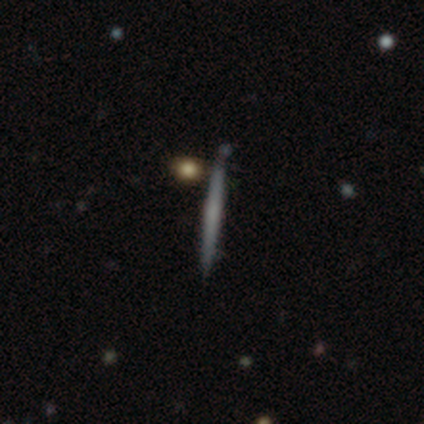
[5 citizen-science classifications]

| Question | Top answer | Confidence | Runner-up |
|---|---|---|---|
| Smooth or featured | featured or disk | 40% | tied: star or artifact (40%) |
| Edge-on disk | yes | 100% | — |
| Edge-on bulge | none | 100% | — |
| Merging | none | 100% | — |